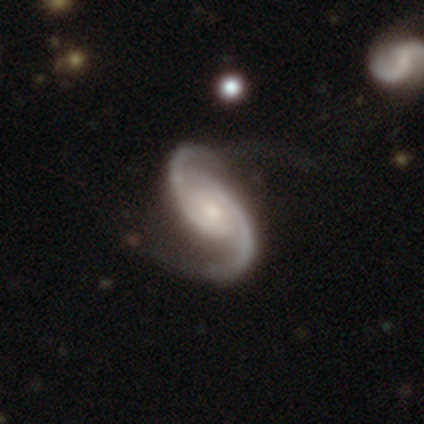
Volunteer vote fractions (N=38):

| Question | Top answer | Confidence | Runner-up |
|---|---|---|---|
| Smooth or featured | featured or disk | 92% | star or artifact (8%) |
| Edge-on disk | no | 97% | yes (3%) |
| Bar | weak | 47% | no (44%) |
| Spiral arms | yes | 94% | no (6%) |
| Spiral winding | medium | 50% | loose (31%) |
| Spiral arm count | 2 | 94% | 3 (3%) |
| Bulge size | small | 68% | moderate (21%) |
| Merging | none | 51% | major disturbance (26%) |